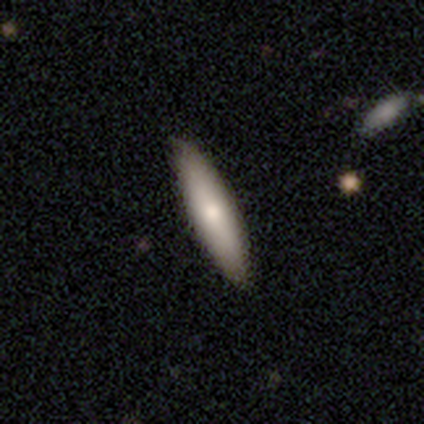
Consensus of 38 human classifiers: Smooth or featured?
  - smooth: 63% *
  - featured or disk: 29%
  - star or artifact: 8%
How rounded?
  - cigar-shaped: 75% *
  - in between: 25%
  - round: 0%
Merging?
  - none: 60% *
  - minor disturbance: 9%
  - major disturbance: 0%
  - merger: 0%